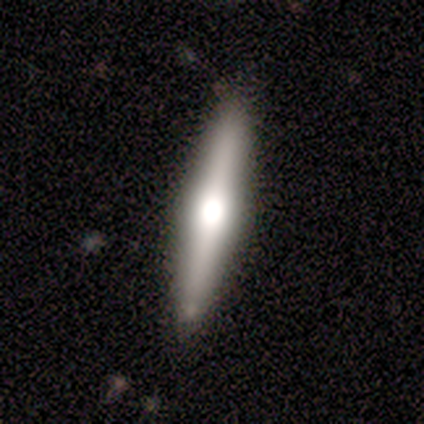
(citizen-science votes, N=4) This is possibly a smooth galaxy (50%, tied with featured or disk). How rounded: clearly cigar-shaped (100%). Merging: clearly none (100%).